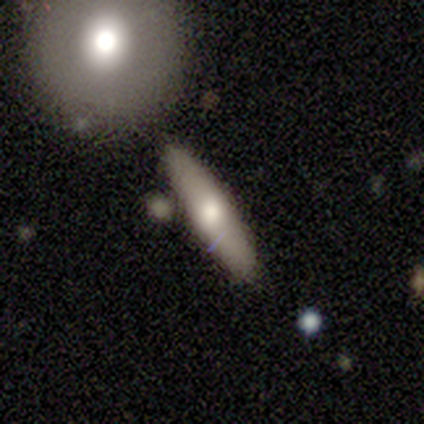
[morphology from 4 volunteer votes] Overall: smooth (75%). How rounded: in between (67%; cigar-shaped 33%). Merging: none (50%, tied with merger).